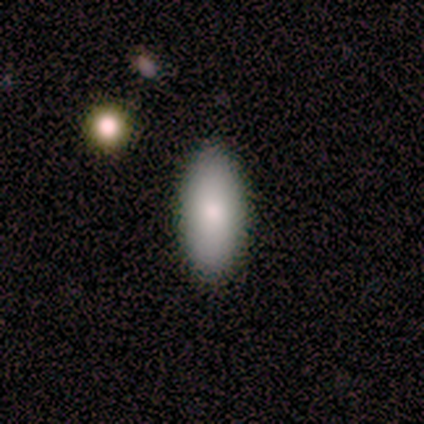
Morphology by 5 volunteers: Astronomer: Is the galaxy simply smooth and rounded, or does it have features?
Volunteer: smooth — 60% (runner-up: featured or disk, 40%).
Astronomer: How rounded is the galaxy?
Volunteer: in between — 67%.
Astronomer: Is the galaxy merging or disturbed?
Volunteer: none — 100%.